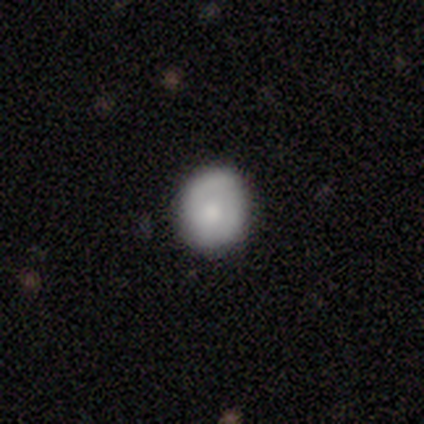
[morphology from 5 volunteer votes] Smooth or featured: smooth — 60% (featured or disk — 40%)
How rounded: round — 100%
Merging: none — 100%